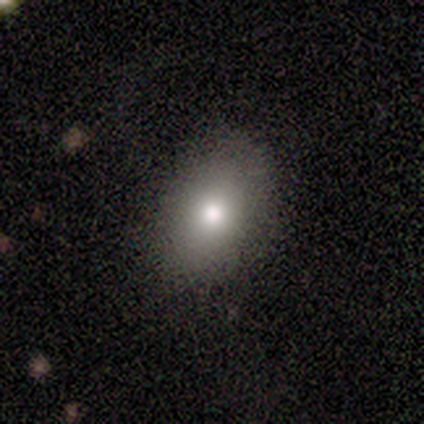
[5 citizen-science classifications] smooth-or-featured: smooth: 100% | featured or disk: 0% | star or artifact: 0%
  how-rounded: in between: 100% | round: 0% | cigar-shaped: 0%
  merging: none: 100% | minor disturbance: 0% | major disturbance: 0% | merger: 0%